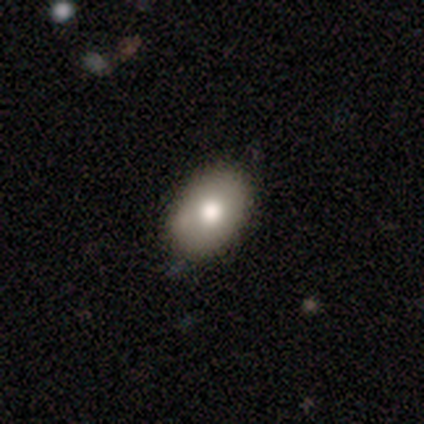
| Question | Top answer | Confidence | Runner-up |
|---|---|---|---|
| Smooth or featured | smooth | 71% | featured or disk (26%) |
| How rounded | in between | 92% | round (4%) |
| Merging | none | 82% | minor disturbance (18%) |